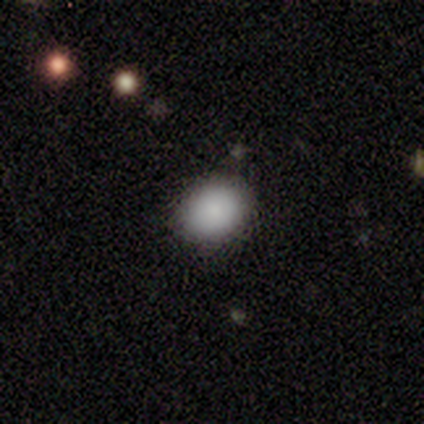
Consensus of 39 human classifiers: Smooth or featured? smooth (92%)
How rounded? in between (53%)
Merging? none (86%)